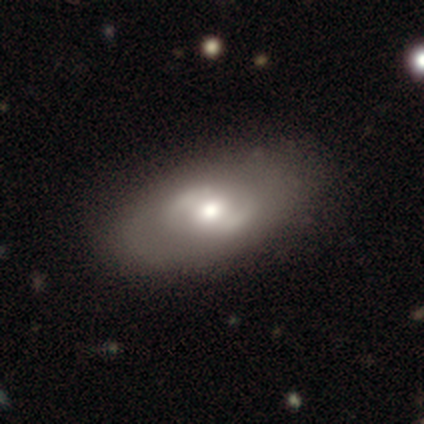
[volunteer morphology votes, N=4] type=featured or disk (75%); edge-on=no (100%); bar=no (100%); spiral arms=no (100%); bulge=moderate (100%); merging=none (100%).